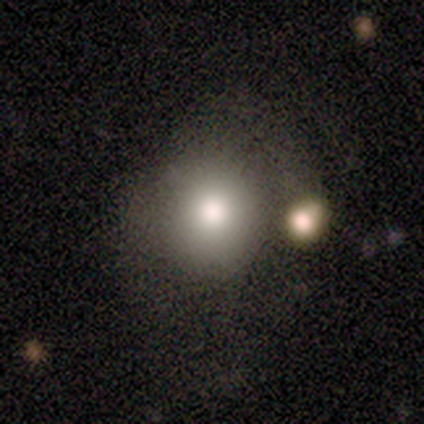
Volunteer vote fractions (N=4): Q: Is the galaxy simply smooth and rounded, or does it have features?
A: smooth — 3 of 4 (75%).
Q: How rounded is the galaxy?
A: round — 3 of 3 (100%).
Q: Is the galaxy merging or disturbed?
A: none — 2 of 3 (67%).